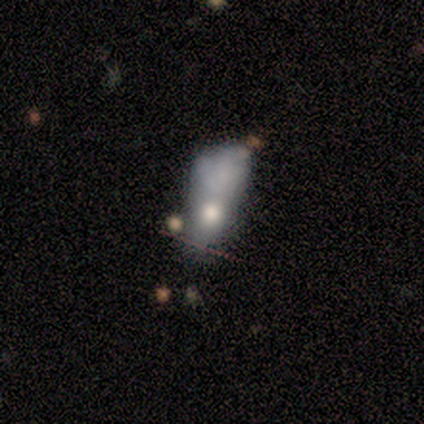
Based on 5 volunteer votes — Q: Smooth or featured?
A: smooth (40%); tied with: featured or disk (40%)
Q: How rounded?
A: in between (100%)
Q: Merging?
A: minor disturbance (50%); runner-up: none (25%)